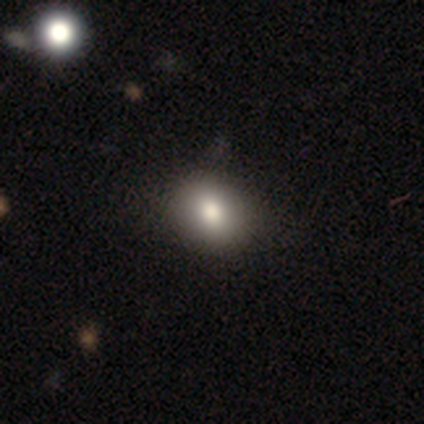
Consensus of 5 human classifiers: This is clearly a smooth galaxy (80%). How rounded: possibly round (50%, tied with in between). Merging: clearly none (100%).